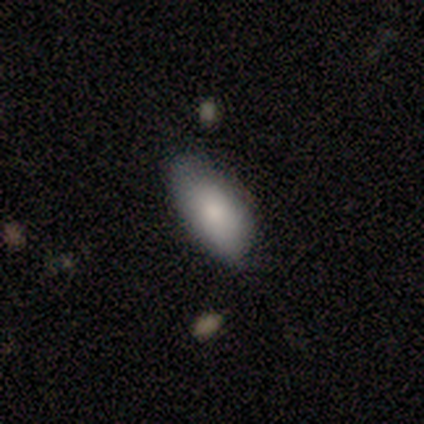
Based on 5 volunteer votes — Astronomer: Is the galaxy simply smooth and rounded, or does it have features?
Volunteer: smooth — 80%.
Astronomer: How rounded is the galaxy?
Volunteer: in between — 100%.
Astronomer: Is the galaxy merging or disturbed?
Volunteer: none — 40%, tied with minor disturbance at 40%.